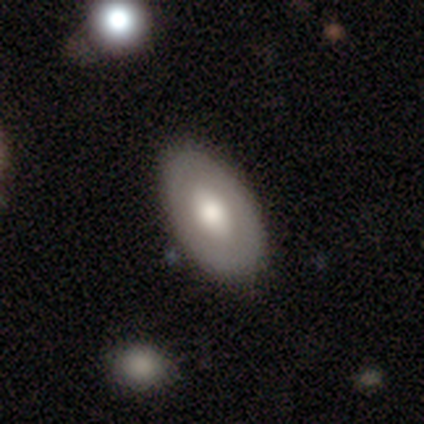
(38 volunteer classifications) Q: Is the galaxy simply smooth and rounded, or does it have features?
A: smooth — 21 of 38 (55%).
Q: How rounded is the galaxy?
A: in between — 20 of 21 (95%).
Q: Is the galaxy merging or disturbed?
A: none — 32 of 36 (89%).